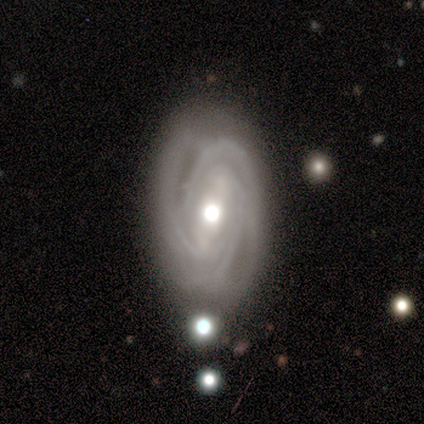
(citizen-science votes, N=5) smooth-or-featured: featured or disk: 60% | smooth: 40% | star or artifact: 0%
  disk-edge-on: no: 100% | yes: 0%
    bar: no: 67% | strong: 33% | weak: 0%
    has-spiral-arms: yes: 100% | no: 0%
      spiral-winding: tight: 100% | medium: 0% | loose: 0%
      spiral-arm-count: 2: 33% (tied) | 3: 33% (tied) | 4: 33% (tied) | 1: 0% | more than 4: 0% | can't tell: 0%
    bulge-size: moderate: 67% | small: 33% | dominant: 0% | large: 0% | none: 0%
  merging: none: 100% | minor disturbance: 0% | major disturbance: 0% | merger: 0%